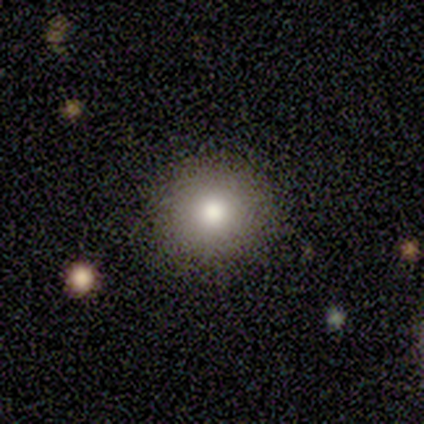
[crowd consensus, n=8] Overall: smooth (100%). How rounded: round (100%). Merging: none (88%).